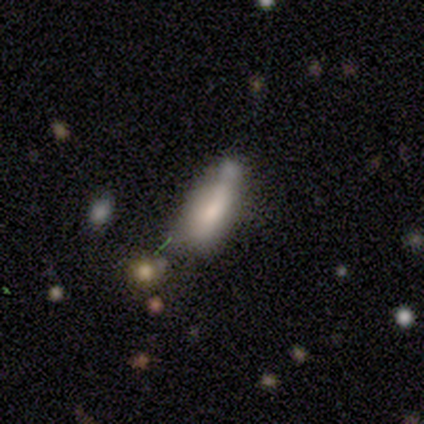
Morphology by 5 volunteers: smooth 60%, featured or disk 20%, star or artifact 20%. Down the decision tree: how rounded — in between (67%); merging — none (50%).